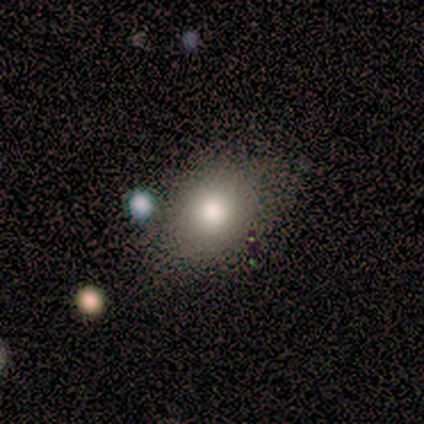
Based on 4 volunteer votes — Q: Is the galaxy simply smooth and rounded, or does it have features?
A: smooth — 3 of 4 (75%).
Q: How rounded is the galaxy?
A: in between — 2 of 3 (67%).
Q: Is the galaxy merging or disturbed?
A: minor disturbance — 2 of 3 (67%).